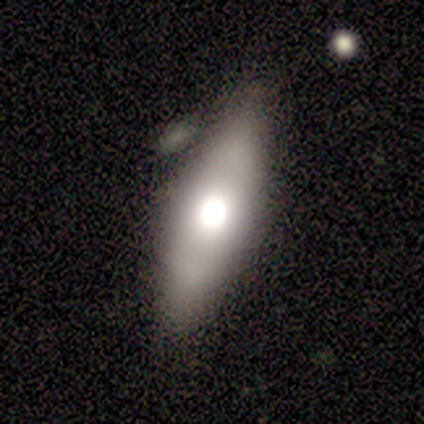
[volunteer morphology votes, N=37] Smooth or featured? 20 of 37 (54%) said smooth. How rounded? 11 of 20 (55%) said in between. Merging? 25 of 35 (71%) said none.